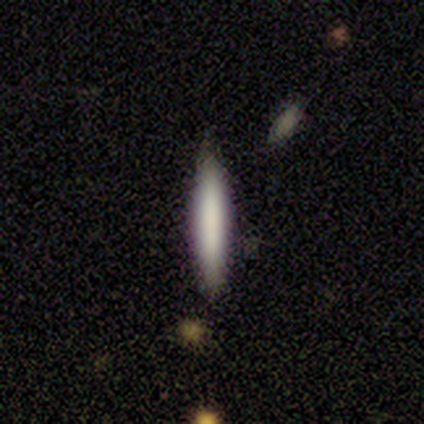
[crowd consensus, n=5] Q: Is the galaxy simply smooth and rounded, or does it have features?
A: smooth — 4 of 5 (80%).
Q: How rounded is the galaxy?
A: cigar-shaped — 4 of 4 (100%).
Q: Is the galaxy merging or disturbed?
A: none — 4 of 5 (80%).